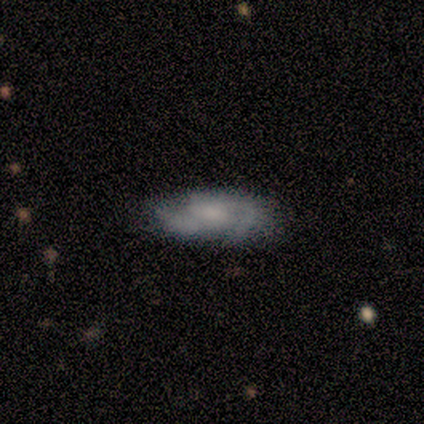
Morphology: type=featured or disk (87%); edge-on=no (91%); bar=no (61%); spiral arms=yes (97%); winding=medium (63%); arm count=2 (67%); bulge=none (35%); merging=none (59%).